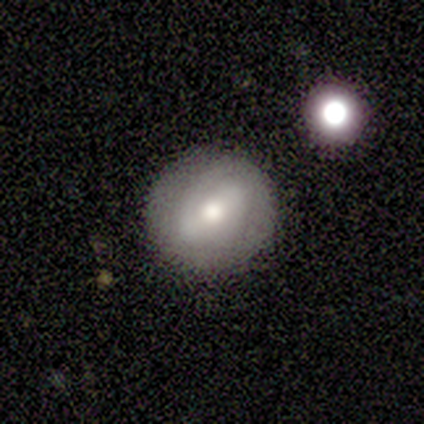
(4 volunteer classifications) Volunteers were most divided on "smooth or featured" (2-way tie): smooth: 50%, featured or disk: 50%, star or artifact: 0%. More confident: how rounded — round (100%); merging — none (50%).